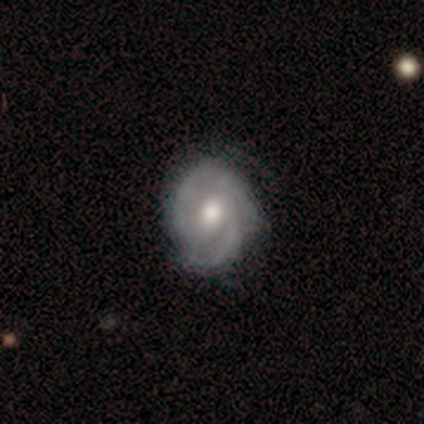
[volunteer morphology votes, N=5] Volunteers were most divided on "spiral winding" (2-way tie): tight: 50%, medium: 50%, loose: 0%. More confident: edge-on disk — no (100%); bar — no (100%); spiral arms — yes (100%); smooth or featured — featured or disk (80%); spiral arm count — 2 (75%); bulge size — moderate (75%); merging — none (75%).